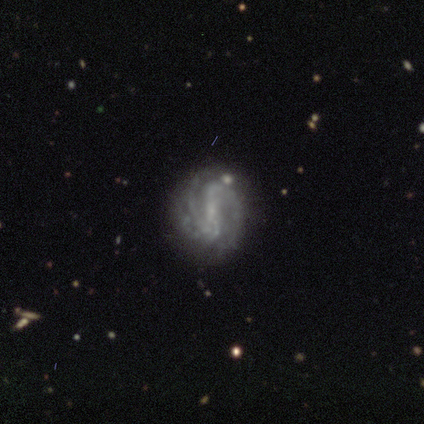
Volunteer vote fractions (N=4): A featured or disk galaxy (75%) with a weak bar (100%), 2 (100%) tight (33%, tied with medium and loose) spiral arms (100%) and no central bulge (67%). Merging: none (75%).